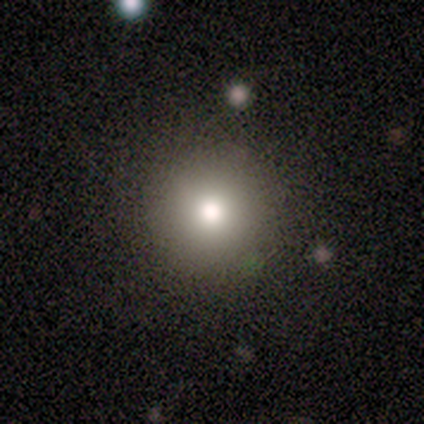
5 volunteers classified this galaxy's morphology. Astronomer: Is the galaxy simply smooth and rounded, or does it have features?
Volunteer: smooth — 80%.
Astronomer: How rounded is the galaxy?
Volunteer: round — 100%.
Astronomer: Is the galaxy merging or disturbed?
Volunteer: none — 100%.